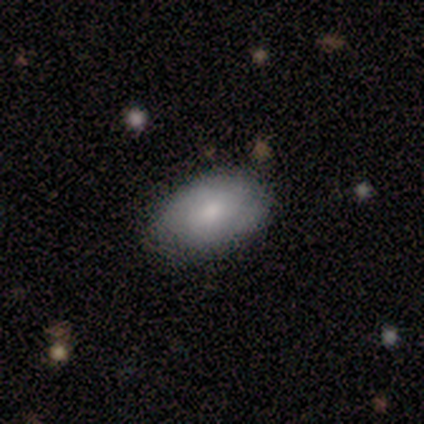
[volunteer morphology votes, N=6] type=smooth (67%); roundness=in between (100%); merging=none (100%).